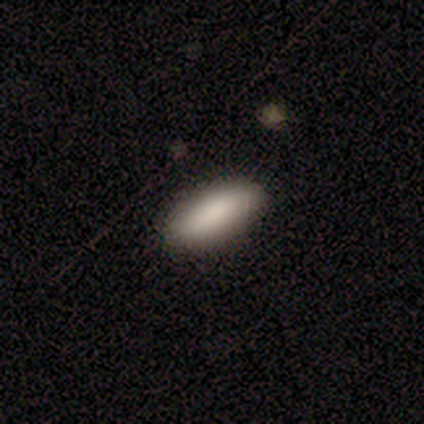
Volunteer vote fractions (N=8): This is clearly a smooth galaxy (100%). How rounded: likely in between (75%). Merging: likely none (75%).